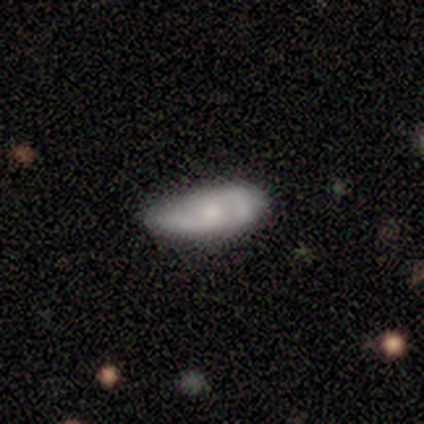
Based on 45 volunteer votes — Q: Smooth or featured?
A: featured or disk (67%); runner-up: smooth (24%)
Q: Edge-on disk?
A: no (97%); runner-up: yes (3%)
Q: Bar?
A: no (72%); runner-up: weak (24%)
Q: Spiral arms?
A: yes (76%); runner-up: no (24%)
Q: Spiral winding?
A: medium (68%); runner-up: tight (23%)
Q: Spiral arm count?
A: 2 (95%); runner-up: can't tell (5%)
Q: Bulge size?
A: moderate (48%); runner-up: small (24%)
Q: Merging?
A: minor disturbance (46%); runner-up: none (44%)